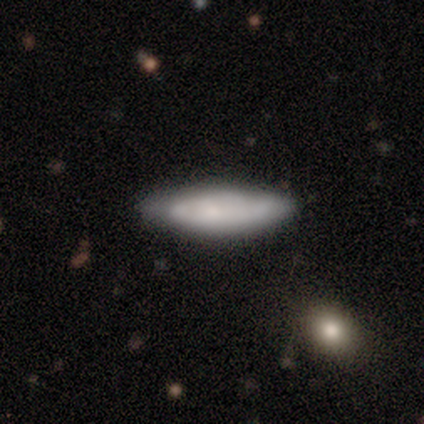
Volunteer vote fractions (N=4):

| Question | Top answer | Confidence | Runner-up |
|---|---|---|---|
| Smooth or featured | smooth | 50% | tied: featured or disk (50%) |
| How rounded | in between | 100% | — |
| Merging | none | 75% | minor disturbance (25%) |